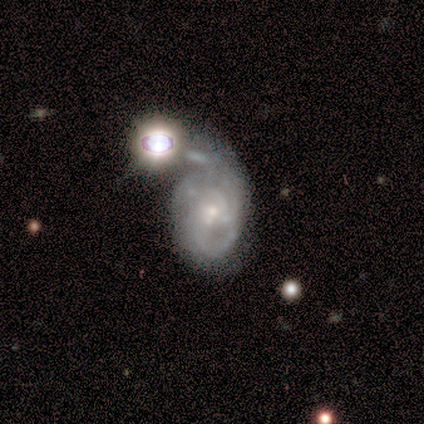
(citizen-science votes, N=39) smooth-or-featured: featured or disk: 85% | star or artifact: 10% | smooth: 5%
  disk-edge-on: no: 97% | yes: 3%
    bar: no: 72% | weak: 22% | strong: 6%
    has-spiral-arms: yes: 88% | no: 12%
      spiral-winding: tight: 46% | medium: 32% | loose: 21%
      spiral-arm-count: 2: 32% (tied) | can't tell: 32% (tied) | 3: 21% | 1: 7% | 4: 7% | more than 4: 0%
    bulge-size: small: 62% | moderate: 31% | large: 3% | none: 3% | dominant: 0%
  merging: major disturbance: 23% (tied) | merger: 23% (tied) | none: 6% | minor disturbance: 6%